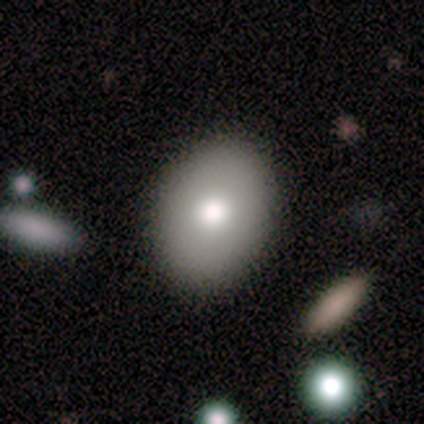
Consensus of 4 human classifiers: Smooth or featured?
  - smooth: 75% *
  - star or artifact: 25%
  - featured or disk: 0%
How rounded?
  - in between: 100% *
  - round: 0%
  - cigar-shaped: 0%
Merging?
  - none: 67% *
  - minor disturbance: 33%
  - major disturbance: 0%
  - merger: 0%